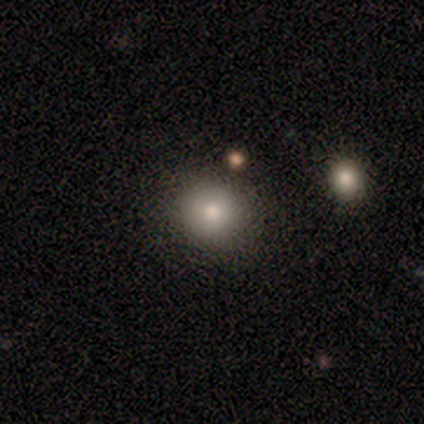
Volunteers were most divided on "merging": none: 60%, minor disturbance: 20%, merger: 20%, major disturbance: 0%. More confident: smooth or featured — smooth (100%); how rounded — round (80%).